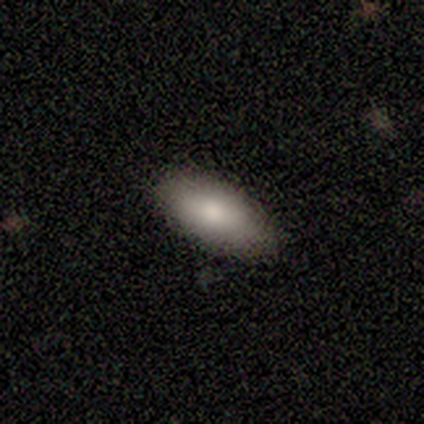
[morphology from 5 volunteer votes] Volunteers were most divided on "merging": none: 80%, minor disturbance: 20%, major disturbance: 0%, merger: 0%. More confident: smooth or featured — smooth (100%); how rounded — in between (100%).